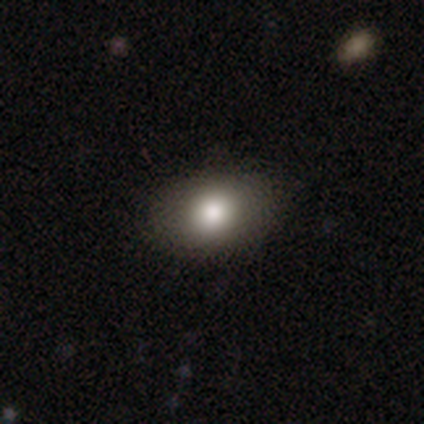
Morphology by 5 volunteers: Smooth or featured? 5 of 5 (100%) said smooth. How rounded? 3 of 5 (60%) said round. Merging? 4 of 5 (80%) said none.